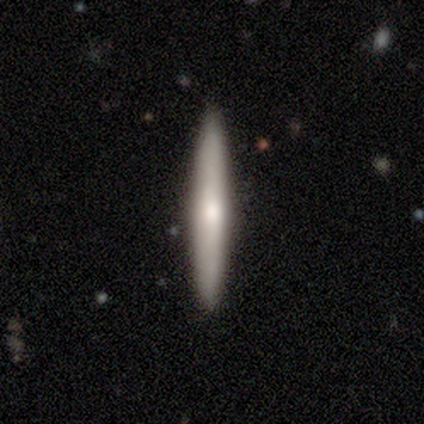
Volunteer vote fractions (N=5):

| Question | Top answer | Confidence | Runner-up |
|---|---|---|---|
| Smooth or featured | smooth | 60% | featured or disk (20%) |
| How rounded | cigar-shaped | 100% | — |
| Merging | none | 100% | — |